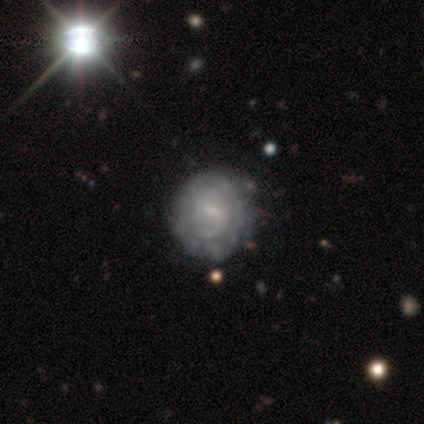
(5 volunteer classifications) Q: Smooth or featured?
A: smooth (40%); tied with: featured or disk (40%)
Q: How rounded?
A: round (100%)
Q: Merging?
A: none (100%)